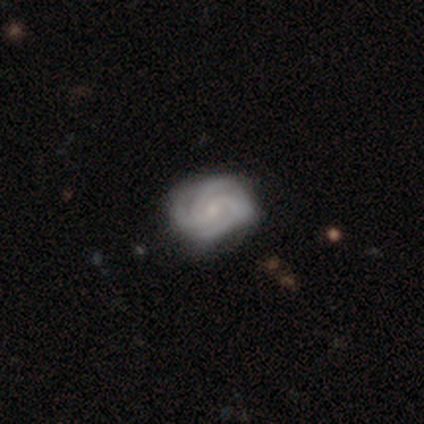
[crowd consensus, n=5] A featured or disk galaxy (100%) with no bar (60%), 4 (60%) medium (60%) spiral arms (100%) and a small central bulge (100%).

Vote fractions:
- Smooth or featured? featured or disk: 100% / smooth: 0% / star or artifact: 0%
- Edge-on disk? no: 100% / yes: 0%
- Bar? no: 60% / weak: 40% / strong: 0%
- Spiral arms? yes: 100% / no: 0%
- Spiral winding? medium: 60% / tight: 40% / loose: 0%
- Spiral arm count? 4: 60% / 3: 40% / 1: 0% / 2: 0% / more than 4: 0% / can't tell: 0%
- Bulge size? small: 100% / dominant: 0% / large: 0% / moderate: 0% / none: 0%
- Merging? none: 100% / minor disturbance: 0% / major disturbance: 0% / merger: 0%